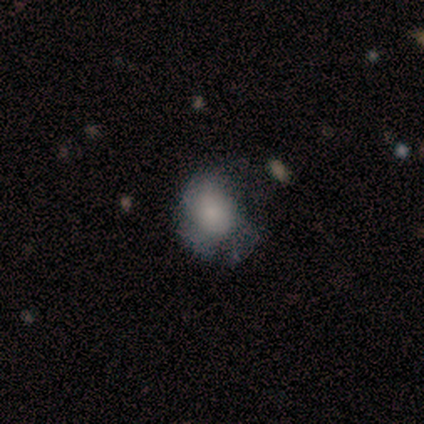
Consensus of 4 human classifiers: Smooth or featured? smooth (100%)
How rounded? round (100%)
Merging? none (50%)